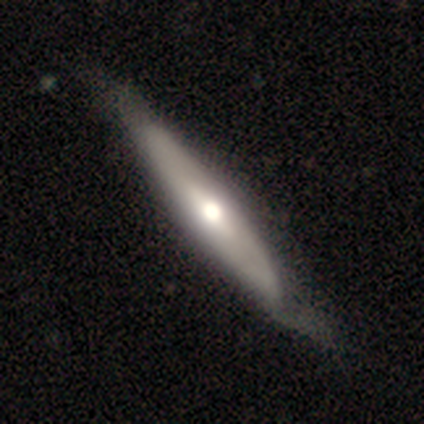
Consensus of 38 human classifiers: Smooth or featured: featured or disk — 61% (smooth — 39%)
Edge-on disk: yes — 70% (no — 30%)
Edge-on bulge: rounded — 81% (none — 19%)
Merging: none — 47% (minor disturbance — 21%)